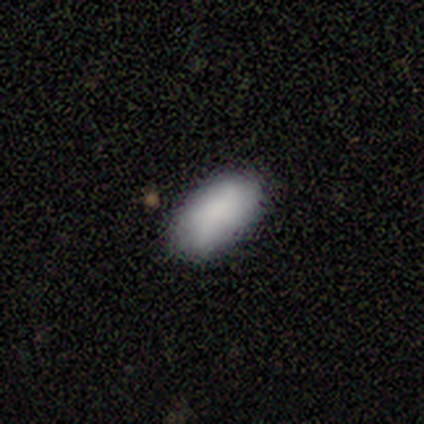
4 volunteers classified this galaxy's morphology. Smooth or featured?
  - smooth: 100% *
  - featured or disk: 0%
  - star or artifact: 0%
How rounded?
  - in between: 100% *
  - round: 0%
  - cigar-shaped: 0%
Merging?
  - none: 75% *
  - minor disturbance: 25%
  - major disturbance: 0%
  - merger: 0%